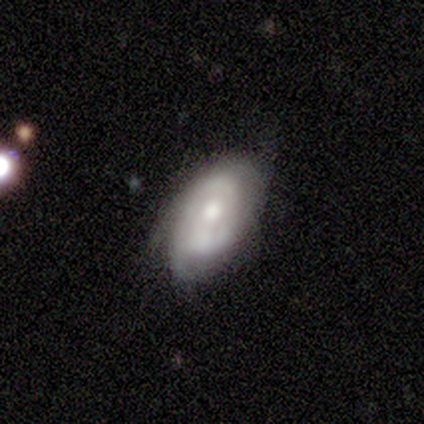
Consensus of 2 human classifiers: A featured or disk galaxy (100%) with a weak bar (50%, tied with no), 1 (50%, tied with 2) tight (100%) spiral arms (100%) and a moderate central bulge (100%).

Vote fractions:
- Smooth or featured? featured or disk: 100% / smooth: 0% / star or artifact: 0%
- Edge-on disk? no: 100% / yes: 0%
- Bar? weak: 50% (tied) / no: 50% (tied) / strong: 0%
- Spiral arms? yes: 100% / no: 0%
- Spiral winding? tight: 100% / medium: 0% / loose: 0%
- Spiral arm count? 1: 50% (tied) / 2: 50% (tied) / 3: 0% / 4: 0% / more than 4: 0% / can't tell: 0%
- Bulge size? moderate: 100% / dominant: 0% / large: 0% / small: 0% / none: 0%
- Merging? none: 50% (tied) / major disturbance: 50% (tied) / minor disturbance: 0% / merger: 0%